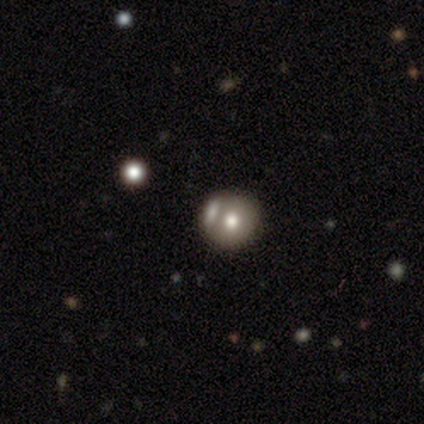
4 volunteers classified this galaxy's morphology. Smooth or featured: smooth — 50% (tied with star or artifact — 50%)
How rounded: round — 100%
Merging: none — 50% (tied with merger — 50%)